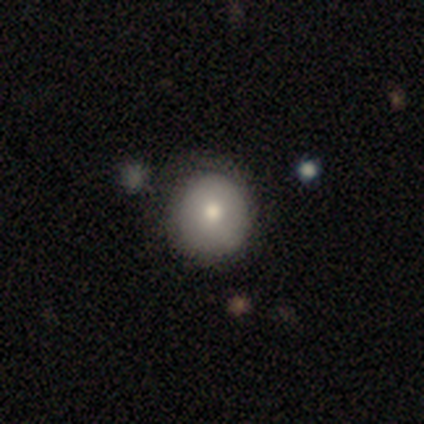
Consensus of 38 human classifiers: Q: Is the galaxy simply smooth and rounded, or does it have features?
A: smooth — 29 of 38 (76%).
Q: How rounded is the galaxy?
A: round — 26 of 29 (90%).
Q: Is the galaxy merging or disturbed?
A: none — 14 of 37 (38%).